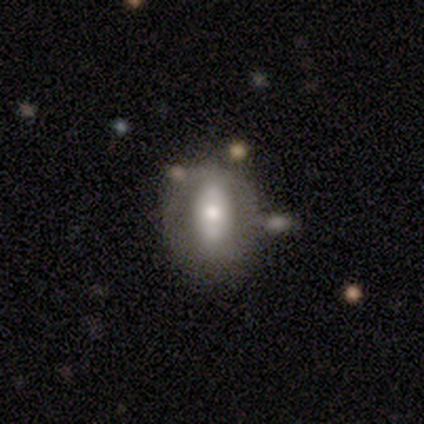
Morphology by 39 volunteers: Smooth or featured? 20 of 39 (51%) said smooth. How rounded? 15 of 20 (75%) said in between. Merging? 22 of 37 (59%) said none.